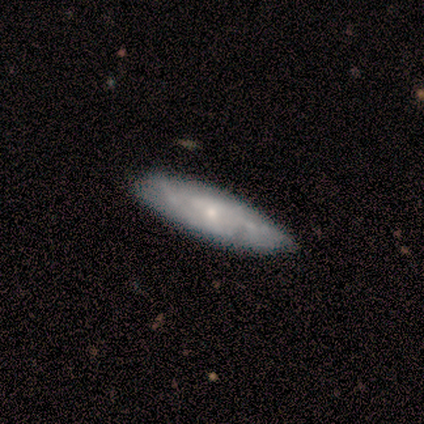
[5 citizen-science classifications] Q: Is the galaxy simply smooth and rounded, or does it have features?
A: featured or disk — 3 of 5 (60%).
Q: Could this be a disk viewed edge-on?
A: yes — 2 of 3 (67%).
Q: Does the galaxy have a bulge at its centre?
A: none — 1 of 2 (50%, tied with rounded).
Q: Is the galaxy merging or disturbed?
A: none — 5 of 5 (100%).